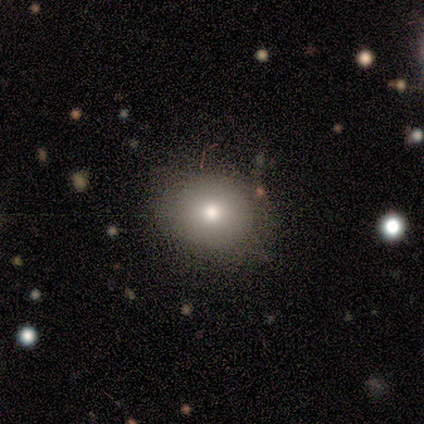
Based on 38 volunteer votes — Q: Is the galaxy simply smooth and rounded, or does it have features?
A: smooth — 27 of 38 (71%).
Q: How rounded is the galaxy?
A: round — 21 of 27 (78%).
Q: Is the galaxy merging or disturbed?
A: none — 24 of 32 (75%).